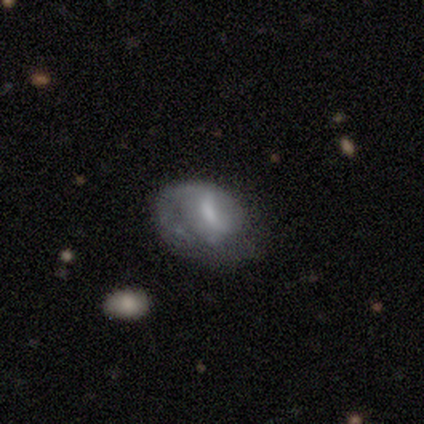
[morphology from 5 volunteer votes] Smooth or featured?
  - featured or disk: 80% *
  - smooth: 20%
  - star or artifact: 0%
Edge-on disk?
  - no: 100% *
  - yes: 0%
Bar?
  - weak: 50% *
  - strong: 25%
  - no: 25%
Spiral arms?
  - yes: 75% *
  - no: 25%
Spiral winding?
  - tight: 67% *
  - loose: 33%
  - medium: 0%
Spiral arm count?
  - 1: 100% *
  - 2: 0%
  - 3: 0%
  - 4: 0%
  - more than 4: 0%
  - can't tell: 0%
Bulge size?
  - none: 50% *
  - moderate: 25%
  - small: 25%
  - dominant: 0%
  - large: 0%
Merging?
  - none: 60% *
  - minor disturbance: 40%
  - major disturbance: 0%
  - merger: 0%